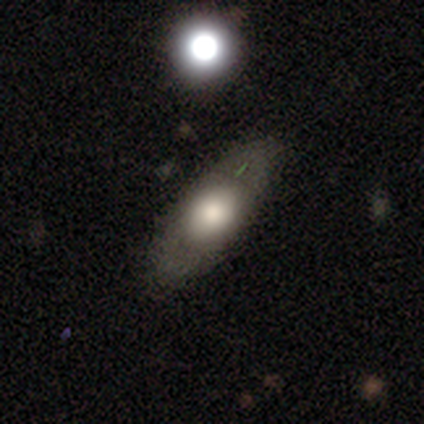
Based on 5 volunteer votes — This is clearly a smooth galaxy (80%). How rounded: possibly round (50%, tied with in between). Merging: clearly none (80%).